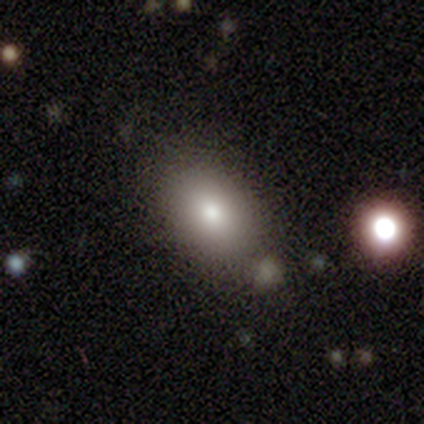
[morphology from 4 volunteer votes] Volunteers were most divided on "how rounded": in between: 75%, round: 25%, cigar-shaped: 0%. More confident: smooth or featured — smooth (100%); merging — none (75%).